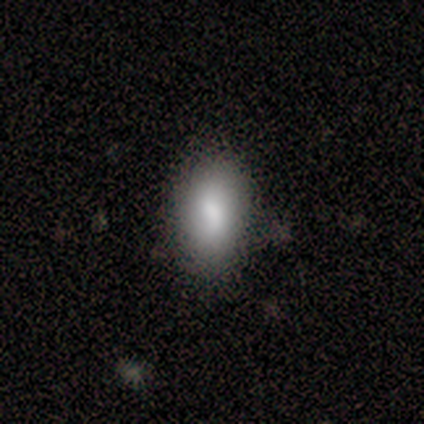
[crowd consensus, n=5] A smooth galaxy with no disk features (80%) that is in between round and cigar-shaped (100%). Merging: none (100%).